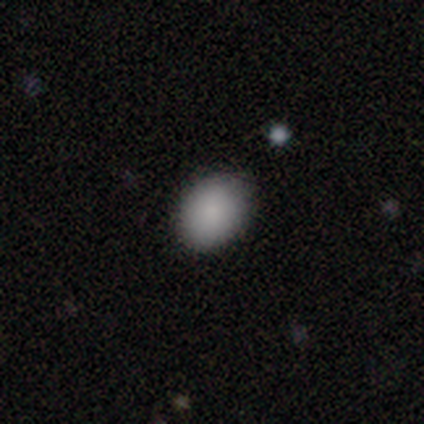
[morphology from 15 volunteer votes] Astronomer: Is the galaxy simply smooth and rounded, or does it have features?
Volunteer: smooth — 93%.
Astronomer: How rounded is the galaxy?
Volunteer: round — 50%, tied with in between at 50%.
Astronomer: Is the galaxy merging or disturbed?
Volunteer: none — 71%.